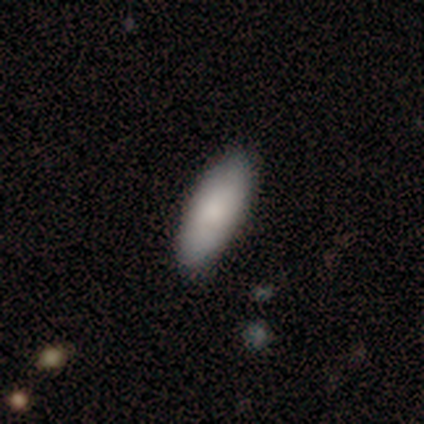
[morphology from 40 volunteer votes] smooth_or_featured: smooth (p=0.82) [alt: featured or disk p=0.15]
how_rounded: in between (p=0.76) [alt: cigar-shaped p=0.24]
merging: none (p=0.85) [alt: minor disturbance p=0.13]